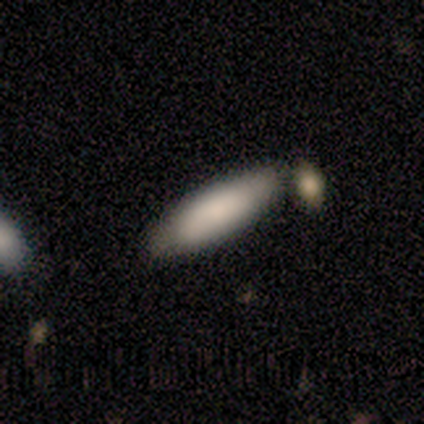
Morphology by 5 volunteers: type=smooth (100%); roundness=in between (60%); merging=none (40%).